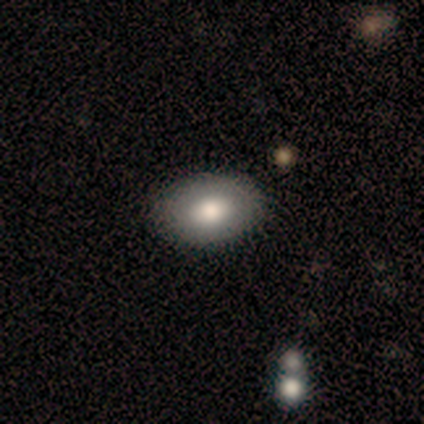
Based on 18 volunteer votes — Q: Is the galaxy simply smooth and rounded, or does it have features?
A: smooth — 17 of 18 (94%).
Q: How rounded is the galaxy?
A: in between — 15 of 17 (88%).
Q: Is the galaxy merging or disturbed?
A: none — 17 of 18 (94%).